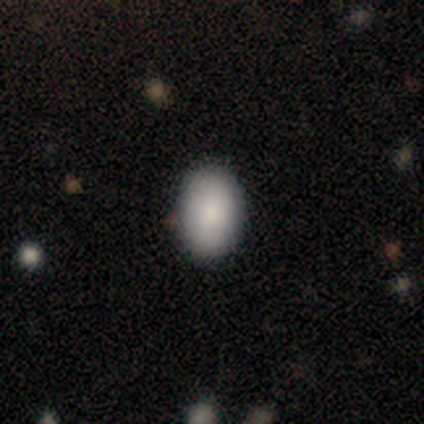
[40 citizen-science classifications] Smooth or featured? 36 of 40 (90%) said smooth. How rounded? 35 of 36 (97%) said in between. Merging? 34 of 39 (87%) said none.